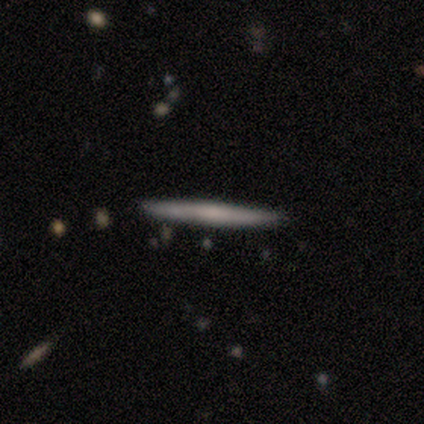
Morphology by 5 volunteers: Q: Smooth or featured?
A: smooth (60%); runner-up: featured or disk (40%)
Q: How rounded?
A: cigar-shaped (100%)
Q: Merging?
A: none (100%)